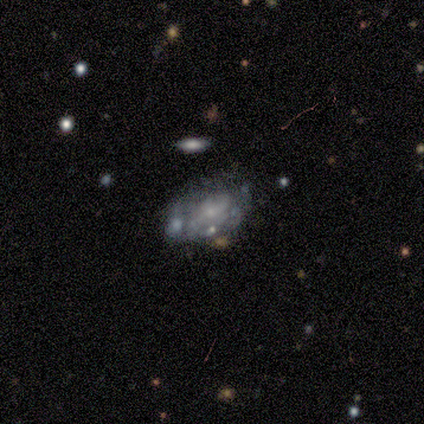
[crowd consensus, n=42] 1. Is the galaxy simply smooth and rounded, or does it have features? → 81% featured or disk, 12% smooth, 7% star or artifact.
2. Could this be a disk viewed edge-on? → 100% no, 0% yes.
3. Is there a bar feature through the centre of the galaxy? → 68% no, 21% weak, 12% strong.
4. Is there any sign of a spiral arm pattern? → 56% yes, 44% no.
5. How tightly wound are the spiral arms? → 42% loose, 32% medium, 26% tight.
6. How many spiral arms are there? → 68% can't tell, 26% 2, 5% 1, 0% 3, 0% 4, 0% more than 4.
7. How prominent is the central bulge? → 68% small, 21% none, 6% large, 6% moderate, 0% dominant.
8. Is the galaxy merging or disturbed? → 44% none, 23% major disturbance, 18% minor disturbance, 15% merger.